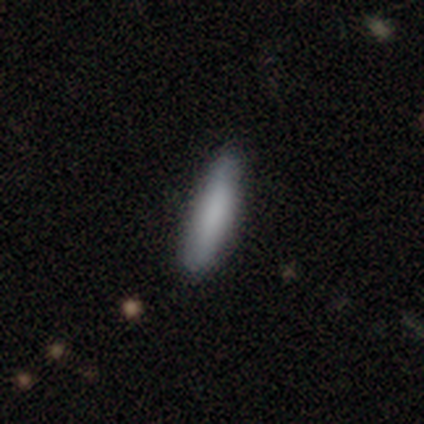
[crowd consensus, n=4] smooth-or-featured: smooth: 100% | featured or disk: 0% | star or artifact: 0%
  how-rounded: cigar-shaped: 75% | in between: 25% | round: 0%
  merging: none: 100% | minor disturbance: 0% | major disturbance: 0% | merger: 0%